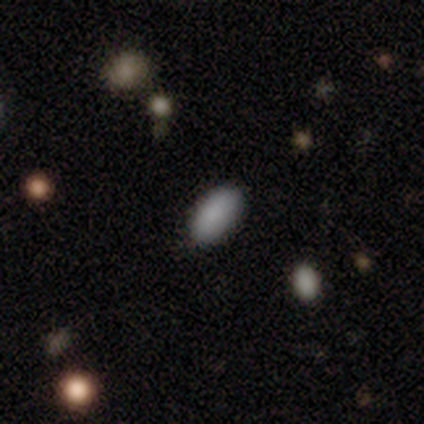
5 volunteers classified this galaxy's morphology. This appears to be a smooth galaxy with no disk features (100%) that is in between round and cigar-shaped (100%). Merging: none (100%).